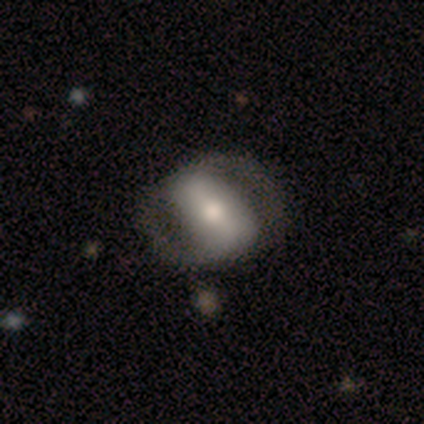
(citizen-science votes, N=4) featured or disk 75%, star or artifact 25%, smooth 0%. Down the decision tree: edge-on disk — no (100%); bar — strong (100%); spiral arms — yes (100%); spiral arm count — 2 (100%); spiral winding — tight (33%, tied with medium and loose); bulge size — dominant (33%, tied with moderate and small); merging — none (100%).